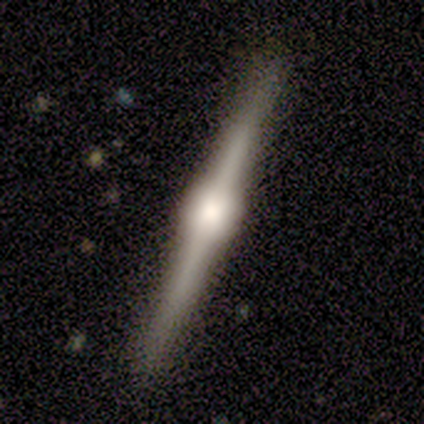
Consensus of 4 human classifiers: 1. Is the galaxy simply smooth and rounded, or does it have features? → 100% featured or disk, 0% smooth, 0% star or artifact.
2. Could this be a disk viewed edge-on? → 100% yes, 0% no.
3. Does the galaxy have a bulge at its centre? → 100% rounded, 0% boxy, 0% none.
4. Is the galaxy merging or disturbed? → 75% none, 25% minor disturbance, 0% major disturbance, 0% merger.